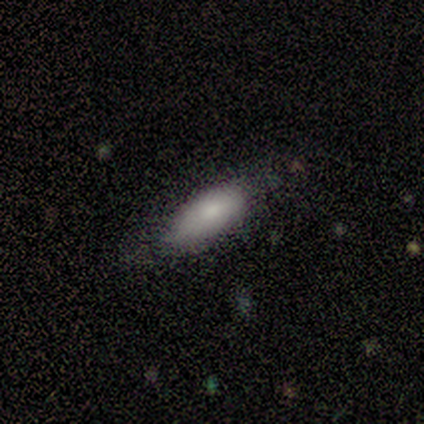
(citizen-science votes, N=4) Consensus on every question: smooth or featured — smooth (100%); how rounded — in between (100%); merging — none (100%).